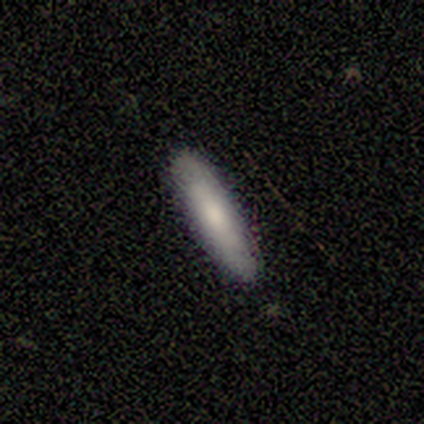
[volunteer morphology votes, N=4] Q: Smooth or featured?
A: featured or disk (75%); runner-up: smooth (25%)
Q: Edge-on disk?
A: yes (100%)
Q: Edge-on bulge?
A: rounded (67%); runner-up: none (33%)
Q: Merging?
A: none (100%)